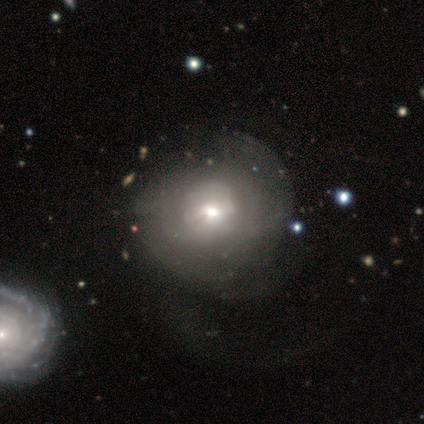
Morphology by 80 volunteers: smooth-or-featured: smooth: 52% | featured or disk: 40% | star or artifact: 8%
  how-rounded: round: 86% | in between: 14% | cigar-shaped: 0%
  merging: major disturbance: 24% | none: 18% | merger: 9% | minor disturbance: 8%